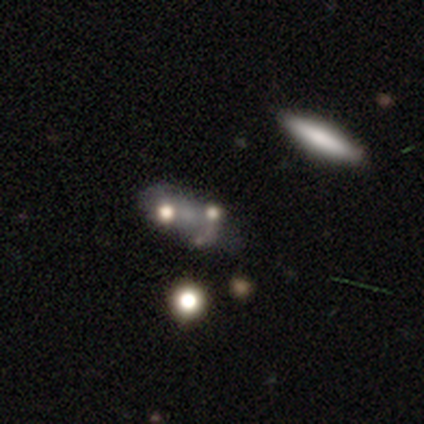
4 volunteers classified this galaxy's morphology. Smooth or featured: smooth — 50% (tied with featured or disk — 50%)
How rounded: round — 100%
Merging: major disturbance — 50% (tied with merger — 50%)